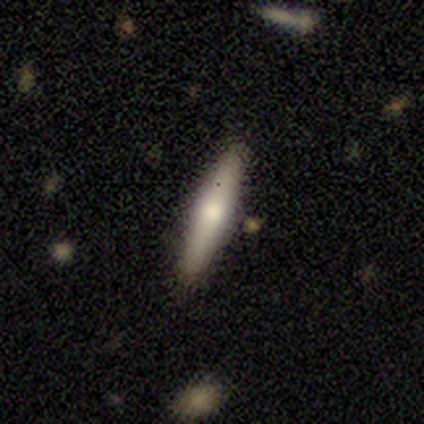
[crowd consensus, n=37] This appears to be a smooth galaxy with no disk features (62%) that is cigar-shaped (91%). Merging: none (89%).